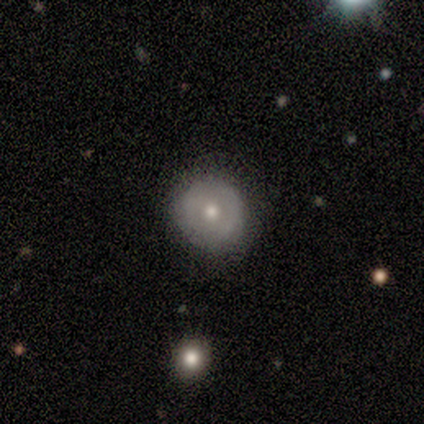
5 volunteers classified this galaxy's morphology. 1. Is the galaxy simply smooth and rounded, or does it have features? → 60% smooth, 20% featured or disk, 20% star or artifact.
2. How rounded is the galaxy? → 100% round, 0% in between, 0% cigar-shaped.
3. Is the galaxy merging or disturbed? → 100% none, 0% minor disturbance, 0% major disturbance, 0% merger.